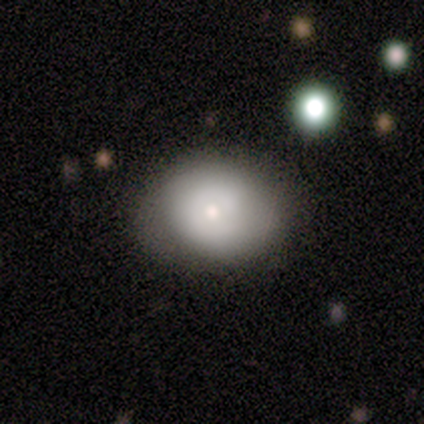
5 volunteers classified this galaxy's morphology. Overall: smooth (80%). How rounded: round (50%, tied with in between). Merging: none (60%; minor disturbance 40%).